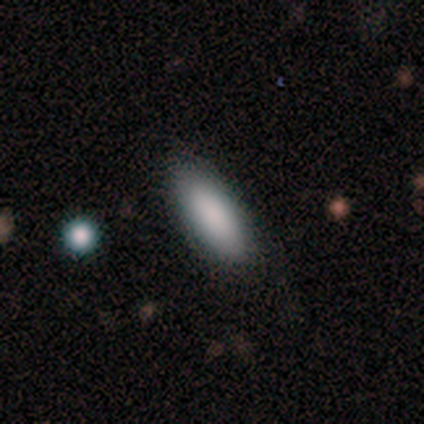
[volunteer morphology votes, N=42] Overall: smooth (86%). How rounded: in between (89%). Merging: none (92%).